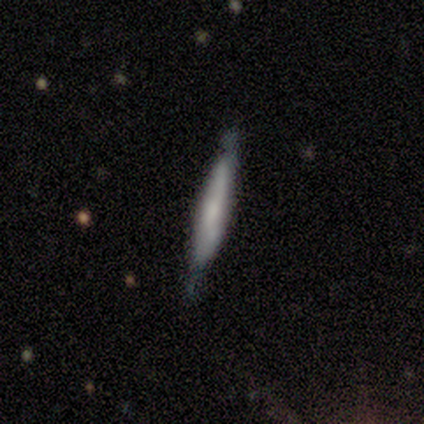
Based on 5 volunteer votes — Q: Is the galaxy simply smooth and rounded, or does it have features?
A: featured or disk — 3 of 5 (60%).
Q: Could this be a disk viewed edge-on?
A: yes — 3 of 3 (100%).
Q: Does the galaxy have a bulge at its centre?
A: rounded — 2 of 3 (67%).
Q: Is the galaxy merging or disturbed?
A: none — 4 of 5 (80%).